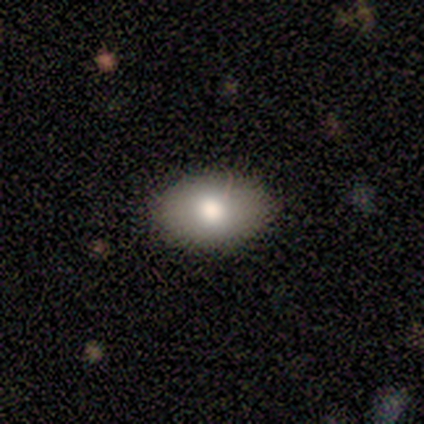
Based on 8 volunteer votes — Q: Smooth or featured?
A: smooth (50%); runner-up: star or artifact (38%)
Q: How rounded?
A: in between (100%)
Q: Merging?
A: none (80%); runner-up: minor disturbance (20%)